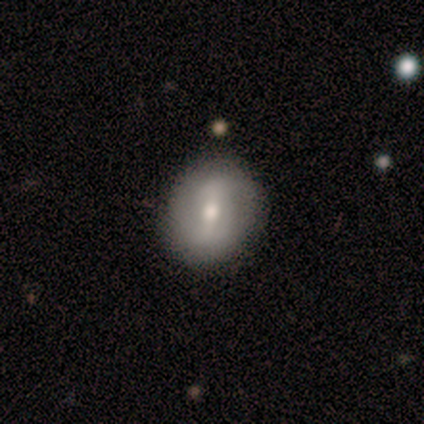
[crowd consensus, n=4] Smooth or featured?
  - smooth: 50% * (tied)
  - featured or disk: 50% * (tied)
  - star or artifact: 0%
How rounded?
  - round: 100% *
  - in between: 0%
  - cigar-shaped: 0%
Merging?
  - none: 50% *
  - minor disturbance: 25%
  - merger: 25%
  - major disturbance: 0%